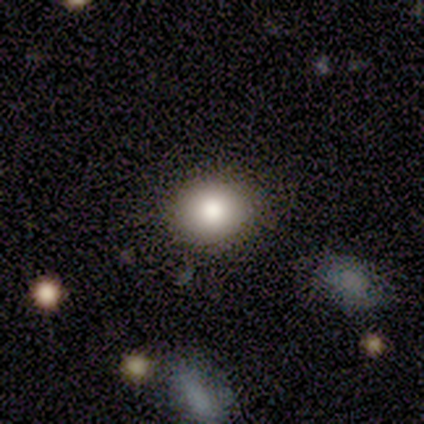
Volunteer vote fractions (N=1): smooth 100%, featured or disk 0%, star or artifact 0%. Down the decision tree: how rounded — round (100%); merging — none (100%).